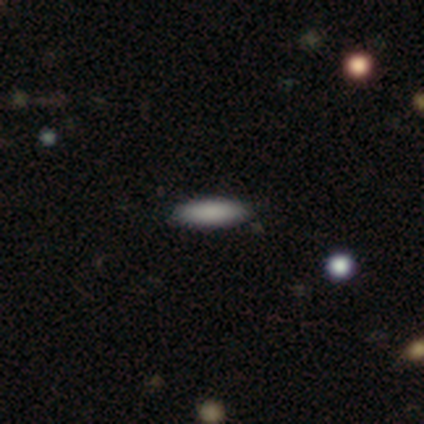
This appears to be a smooth galaxy with no disk features (80%) that is in between round and cigar-shaped (50%, tied with cigar-shaped). Merging: none (100%).